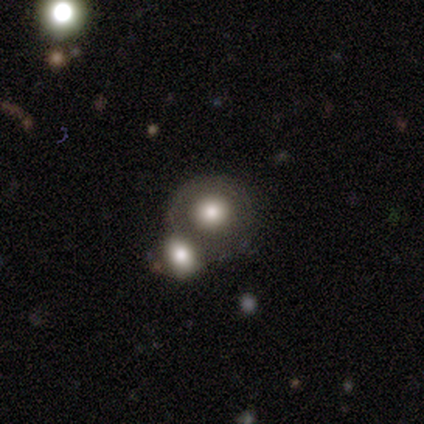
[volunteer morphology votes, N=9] A featured or disk galaxy (56%) with no bar (100%), no spiral arms (100%) and a moderate central bulge (40%, tied with small).

Vote fractions:
- Smooth or featured? featured or disk: 56% / smooth: 44% / star or artifact: 0%
- Edge-on disk? no: 100% / yes: 0%
- Bar? no: 100% / strong: 0% / weak: 0%
- Spiral arms? no: 100% / yes: 0%
- Bulge size? moderate: 40% (tied) / small: 40% (tied) / dominant: 20% / large: 0% / none: 0%
- Merging? merger: 56% / none: 33% / major disturbance: 11% / minor disturbance: 0%